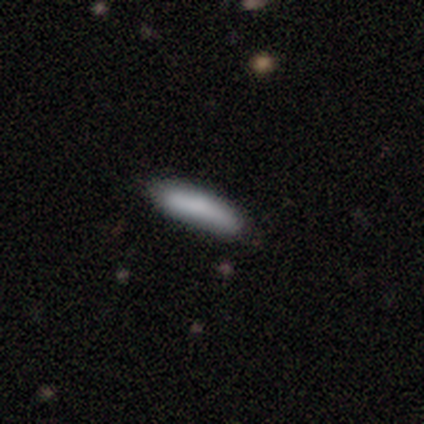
Smooth or featured? 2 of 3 (67%) said smooth. How rounded? 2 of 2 (100%) said cigar-shaped. Merging? 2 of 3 (67%) said none.